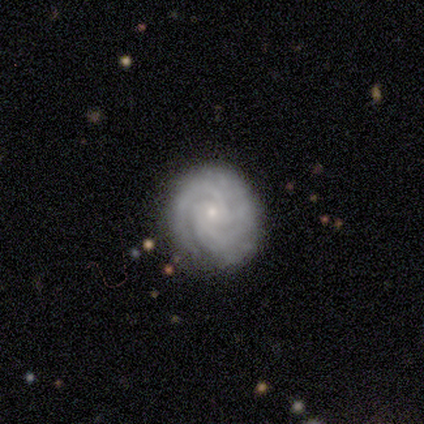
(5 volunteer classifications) Smooth or featured? featured or disk (100%)
Edge-on disk? no (100%)
Bar? no (60%)
Spiral arms? yes (100%)
Spiral winding? tight (100%)
Spiral arm count? 2 (60%)
Bulge size? small (100%)
Merging? none (100%)